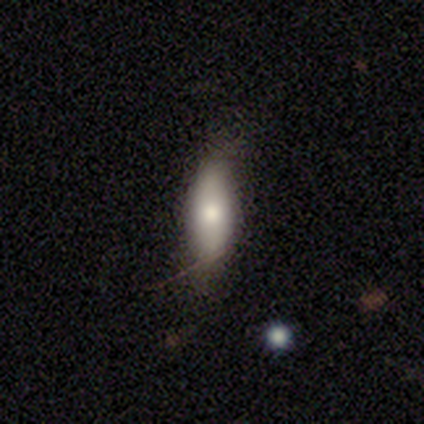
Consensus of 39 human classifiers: smooth 62%, featured or disk 26%, star or artifact 13%. Down the decision tree: how rounded — in between (67%); merging — none (59%).